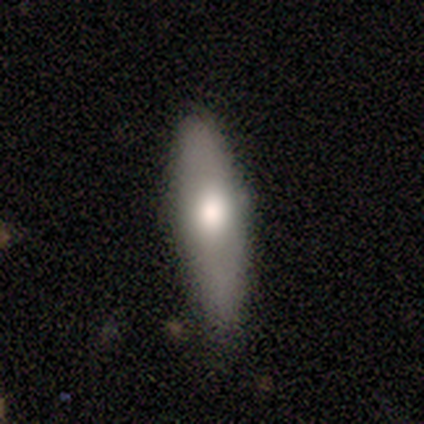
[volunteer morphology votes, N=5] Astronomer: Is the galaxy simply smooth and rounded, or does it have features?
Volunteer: smooth — 80%.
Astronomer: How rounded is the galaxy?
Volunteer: cigar-shaped — 75%.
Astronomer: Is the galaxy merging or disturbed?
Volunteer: none — 60% (runner-up: minor disturbance, 40%).